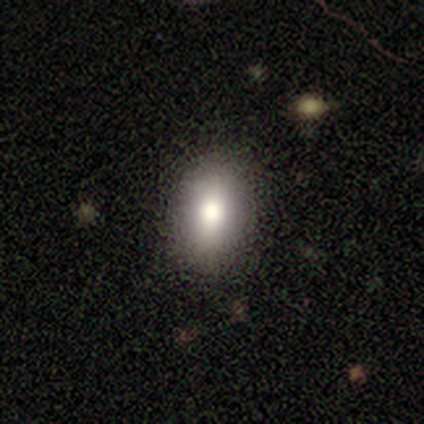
This is clearly a smooth galaxy (80%). How rounded: clearly in between (100%). Merging: likely none (75%).